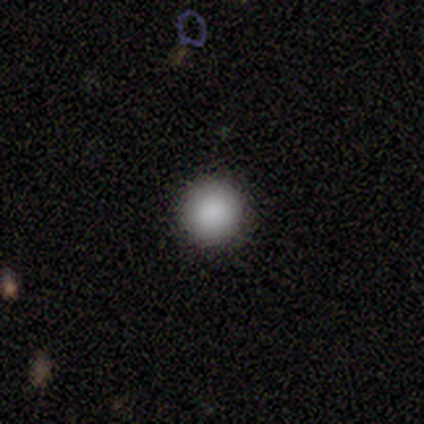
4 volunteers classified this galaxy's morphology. type=smooth (100%); roundness=round (100%); merging=none (100%).